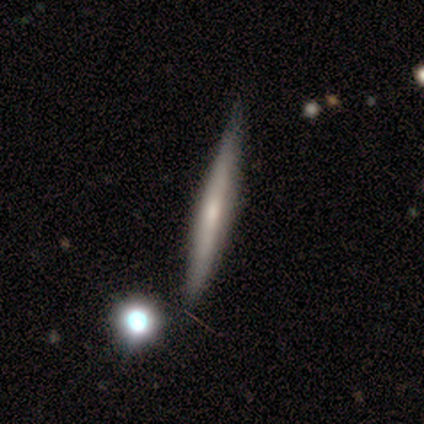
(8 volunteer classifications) Q: Smooth or featured?
A: featured or disk (50%); runner-up: smooth (38%)
Q: Edge-on disk?
A: yes (100%)
Q: Edge-on bulge?
A: none (50%); tied with: rounded (50%)
Q: Merging?
A: none (86%); runner-up: merger (14%)